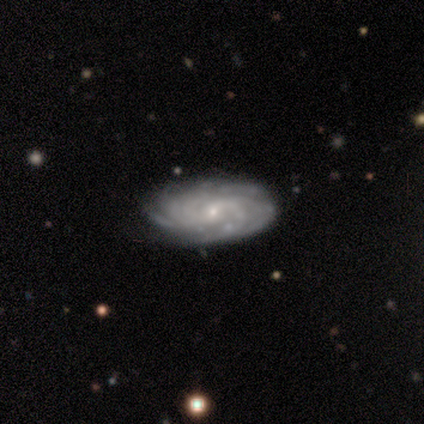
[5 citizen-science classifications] Smooth or featured? featured or disk (80%)
Edge-on disk? no (100%)
Bar? no (75%)
Spiral arms? yes (100%)
Spiral winding? medium (50%)
Spiral arm count? can't tell (75%)
Bulge size? small (100%)
Merging? none (80%)